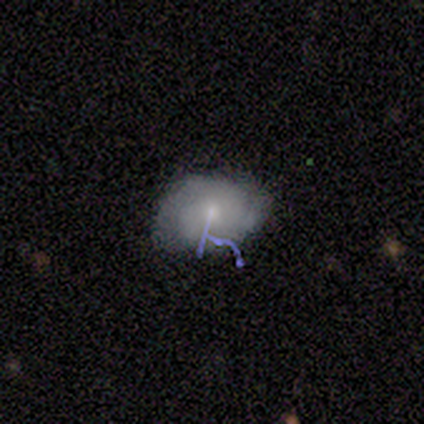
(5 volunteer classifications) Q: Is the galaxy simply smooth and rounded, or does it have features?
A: featured or disk — 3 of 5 (60%).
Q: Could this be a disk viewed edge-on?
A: no — 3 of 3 (100%).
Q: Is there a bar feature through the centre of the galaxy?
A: no — 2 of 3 (67%).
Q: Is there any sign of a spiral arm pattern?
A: yes — 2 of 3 (67%).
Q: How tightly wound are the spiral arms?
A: tight — 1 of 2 (50%, tied with medium).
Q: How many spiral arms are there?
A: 2 — 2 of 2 (100%).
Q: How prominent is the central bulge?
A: small — 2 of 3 (67%).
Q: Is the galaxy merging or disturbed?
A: none — 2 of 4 (50%, tied with minor disturbance).